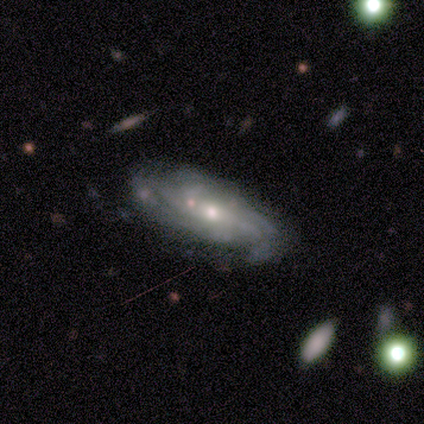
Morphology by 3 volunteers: Smooth or featured?
  - featured or disk: 100% *
  - smooth: 0%
  - star or artifact: 0%
Edge-on disk?
  - no: 67% *
  - yes: 33%
Bar?
  - no: 100% *
  - strong: 0%
  - weak: 0%
Spiral arms?
  - no: 100% *
  - yes: 0%
Bulge size?
  - small: 100% *
  - dominant: 0%
  - large: 0%
  - moderate: 0%
  - none: 0%
Merging?
  - none: 33% * (tied)
  - minor disturbance: 33% * (tied)
  - merger: 33% * (tied)
  - major disturbance: 0%